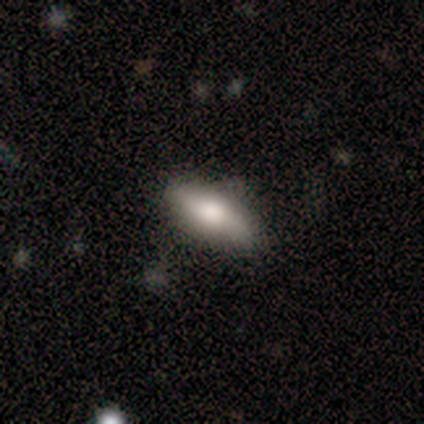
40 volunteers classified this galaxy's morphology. Smooth or featured? 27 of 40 (68%) said smooth. How rounded? 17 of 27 (63%) said in between. Merging? 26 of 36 (72%) said none.